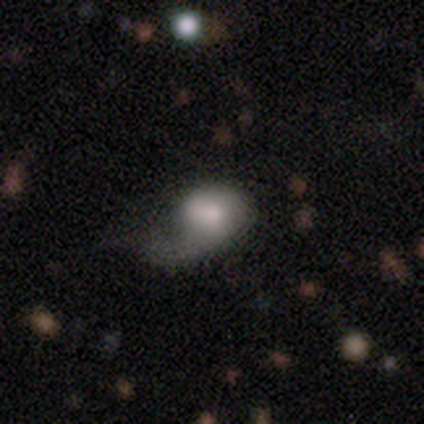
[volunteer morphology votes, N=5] Smooth or featured? smooth (40%, tied with featured or disk)
How rounded? in between (100%)
Merging? minor disturbance (75%)